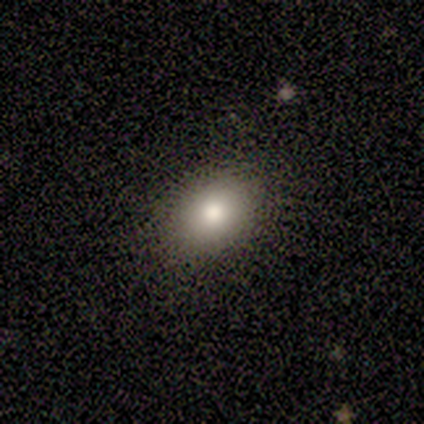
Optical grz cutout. It shows a smooth galaxy with no disk features (83%) that is in between round and cigar-shaped (60%). Merging: none (100%).